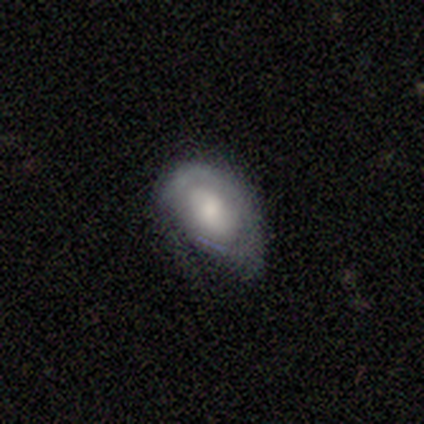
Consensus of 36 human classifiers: A smooth galaxy with no disk features (47%) that is in between round and cigar-shaped (100%). Merging: minor disturbance (47%).